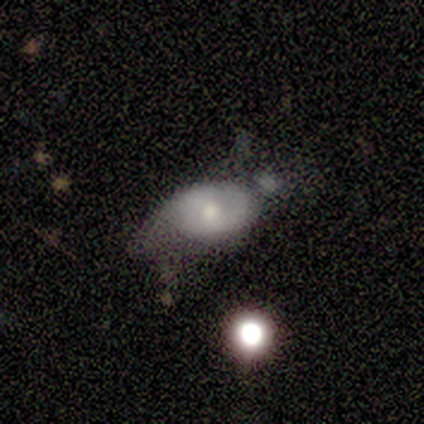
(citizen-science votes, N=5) A smooth galaxy with no disk features (80%) that is in between round and cigar-shaped (100%).

Vote fractions:
- Smooth or featured? smooth: 80% / featured or disk: 20% / star or artifact: 0%
- How rounded? in between: 100% / round: 0% / cigar-shaped: 0%
- Merging? minor disturbance: 60% / none: 20% / merger: 20% / major disturbance: 0%